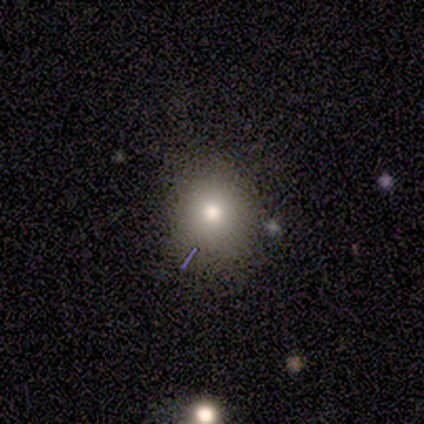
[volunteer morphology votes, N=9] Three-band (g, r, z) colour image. It shows a smooth galaxy with no disk features (89%) that is round (75%). Merging: none (78%).